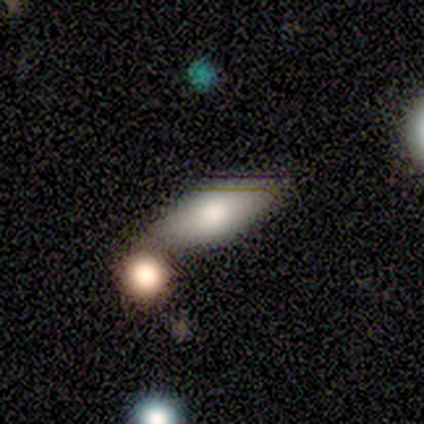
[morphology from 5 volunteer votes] Q: Smooth or featured?
A: smooth (80%); runner-up: featured or disk (20%)
Q: How rounded?
A: in between (50%); tied with: cigar-shaped (50%)
Q: Merging?
A: none (40%); tied with: merger (40%)